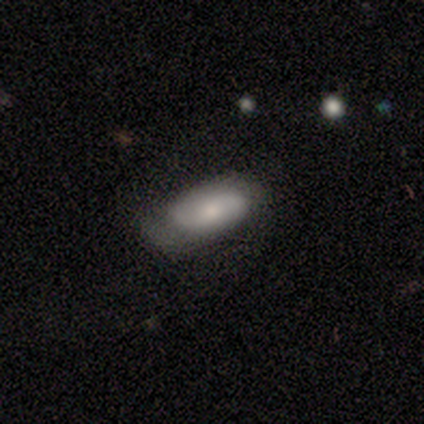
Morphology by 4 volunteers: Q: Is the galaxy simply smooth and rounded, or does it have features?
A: smooth — 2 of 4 (50%, tied with featured or disk).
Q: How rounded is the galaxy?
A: in between — 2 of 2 (100%).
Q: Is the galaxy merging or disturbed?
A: none — 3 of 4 (75%).